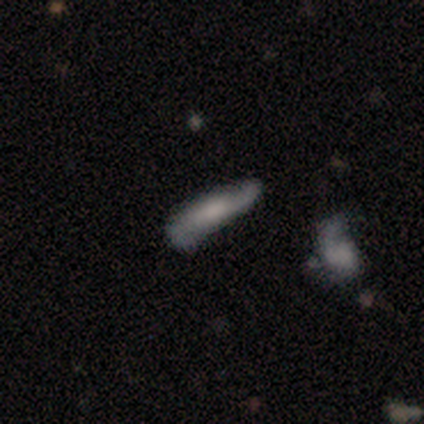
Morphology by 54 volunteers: Q: Smooth or featured?
A: featured or disk (52%); runner-up: smooth (44%)
Q: Edge-on disk?
A: no (79%); runner-up: yes (21%)
Q: Bar?
A: no (50%); runner-up: weak (41%)
Q: Spiral arms?
A: yes (86%); runner-up: no (14%)
Q: Spiral winding?
A: loose (47%); runner-up: medium (37%)
Q: Spiral arm count?
A: 2 (63%); runner-up: can't tell (37%)
Q: Bulge size?
A: moderate (36%); runner-up: large (27%)
Q: Merging?
A: none (50%); runner-up: minor disturbance (42%)